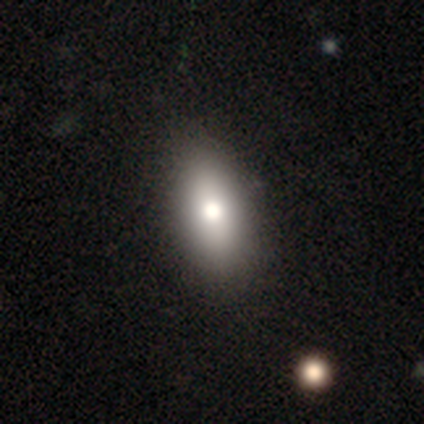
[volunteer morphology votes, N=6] Smooth or featured? smooth (50%)
How rounded? in between (100%)
Merging? none (75%)